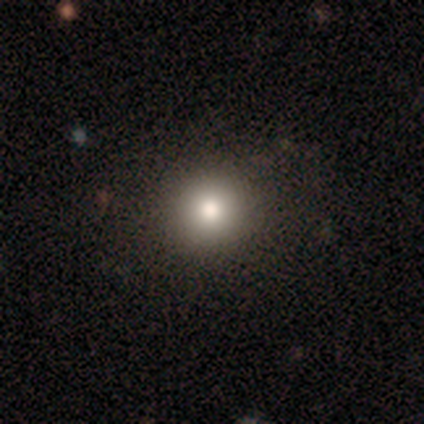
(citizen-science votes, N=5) Smooth or featured?
  - smooth: 60% *
  - featured or disk: 40%
  - star or artifact: 0%
How rounded?
  - round: 100% *
  - in between: 0%
  - cigar-shaped: 0%
Merging?
  - none: 100% *
  - minor disturbance: 0%
  - major disturbance: 0%
  - merger: 0%